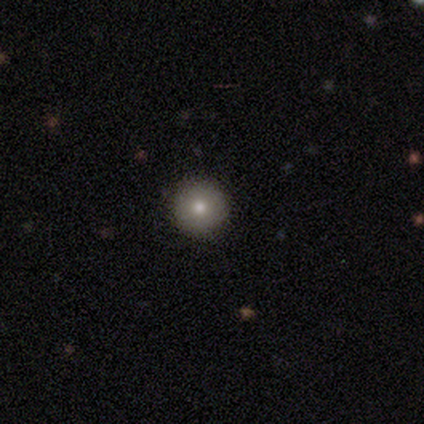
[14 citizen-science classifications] A smooth galaxy with no disk features (57%) that is round (75%). Merging: none (73%).